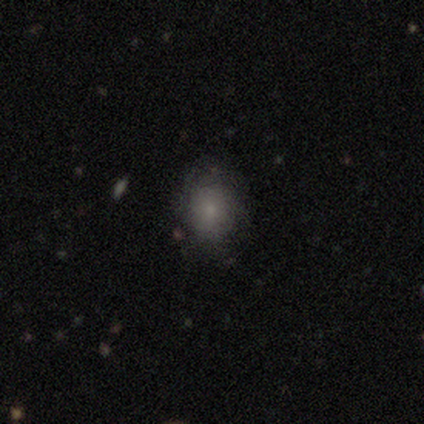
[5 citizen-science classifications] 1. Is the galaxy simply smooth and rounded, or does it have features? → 60% smooth, 40% featured or disk, 0% star or artifact.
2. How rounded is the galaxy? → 67% round, 33% in between, 0% cigar-shaped.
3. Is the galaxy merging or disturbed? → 60% none, 40% minor disturbance, 0% major disturbance, 0% merger.